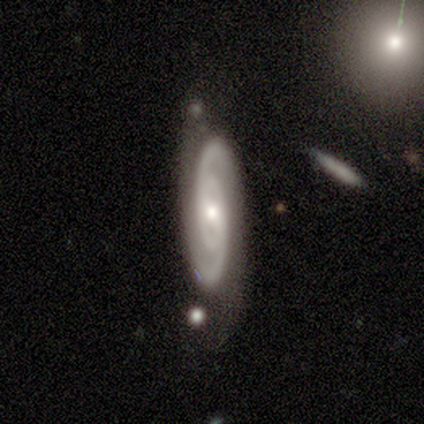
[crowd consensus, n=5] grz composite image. It shows a featured or disk galaxy (100%) with a weak bar (40%, tied with no), 2 (100%) tight (60%) spiral arms (100%) and a small central bulge (60%). Merging: none (80%).